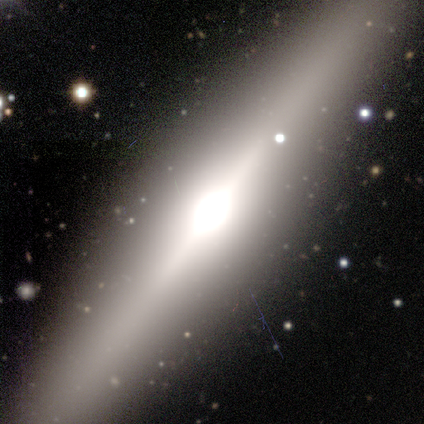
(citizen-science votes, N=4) Volunteers were most divided on "edge-on bulge": rounded: 67%, boxy: 33%, none: 0%. More confident: edge-on disk — yes (100%); merging — none (100%); smooth or featured — featured or disk (75%).